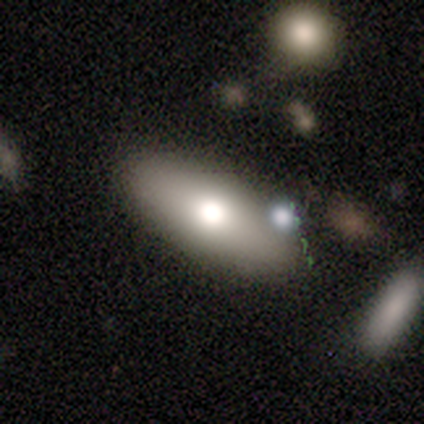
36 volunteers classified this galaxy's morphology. Smooth or featured? 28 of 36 (78%) said smooth. How rounded? 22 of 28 (79%) said in between. Merging? 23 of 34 (68%) said none.